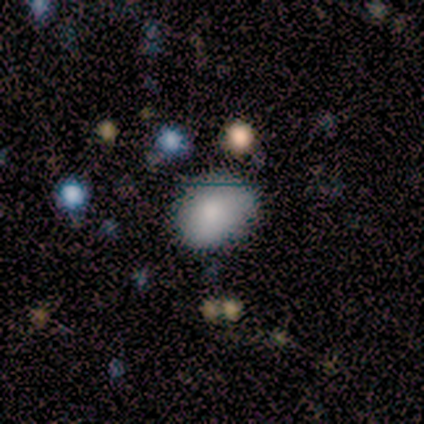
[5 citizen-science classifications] Overall: smooth (100%). How rounded: in between (60%; round 40%). Merging: none (80%).